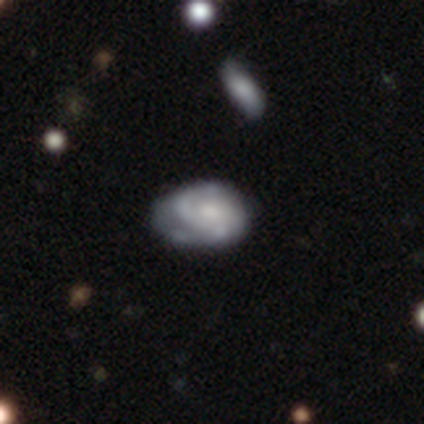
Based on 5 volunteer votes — smooth_or_featured: featured or disk (p=0.60) [alt: smooth p=0.40]
disk_edge_on: no (p=1.00)
bar: no (p=0.67) [alt: weak p=0.33]
has_spiral_arms: yes (p=0.67) [alt: no p=0.33]
spiral_winding: tight (p=0.50) [tied with: loose p=0.50]
spiral_arm_count: 2 (p=0.50) [tied with: 3 p=0.50]
bulge_size: moderate (p=0.67) [alt: small p=0.33]
merging: none (p=0.40) [tied with: minor disturbance p=0.40]